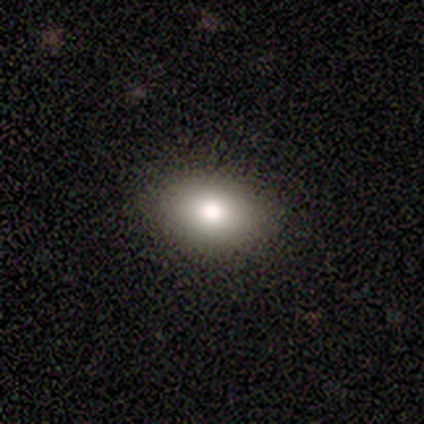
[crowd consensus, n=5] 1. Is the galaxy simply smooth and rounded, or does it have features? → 60% smooth, 40% star or artifact, 0% featured or disk.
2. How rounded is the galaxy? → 100% in between, 0% round, 0% cigar-shaped.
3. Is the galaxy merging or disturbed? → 100% none, 0% minor disturbance, 0% major disturbance, 0% merger.